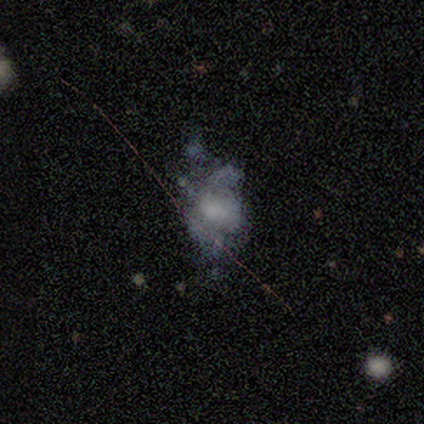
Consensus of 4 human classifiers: Smooth or featured?
  - featured or disk: 75% *
  - smooth: 25%
  - star or artifact: 0%
Edge-on disk?
  - no: 100% *
  - yes: 0%
Bar?
  - no: 100% *
  - strong: 0%
  - weak: 0%
Spiral arms?
  - no: 100% *
  - yes: 0%
Bulge size?
  - large: 33% * (tied)
  - small: 33% * (tied)
  - none: 33% * (tied)
  - dominant: 0%
  - moderate: 0%
Merging?
  - none: 25% * (tied)
  - minor disturbance: 25% * (tied)
  - major disturbance: 25% * (tied)
  - merger: 25% * (tied)